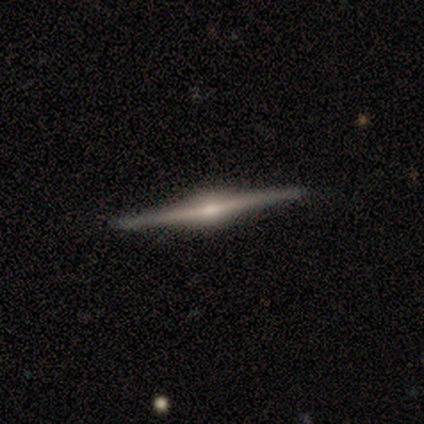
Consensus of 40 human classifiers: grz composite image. It shows a featured or disk galaxy (90%) viewed edge-on (97%) with a rounded central bulge (97%). Merging: none (54%).